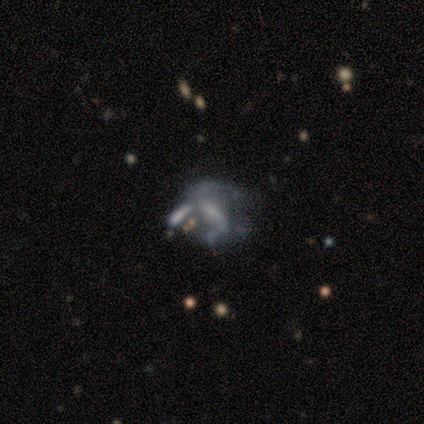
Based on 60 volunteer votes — A featured or disk galaxy (82%) with no bar (40%), 2 (78%) loose (59%) spiral arms (56%) and a small central bulge (40%). Merging: merger (48%).